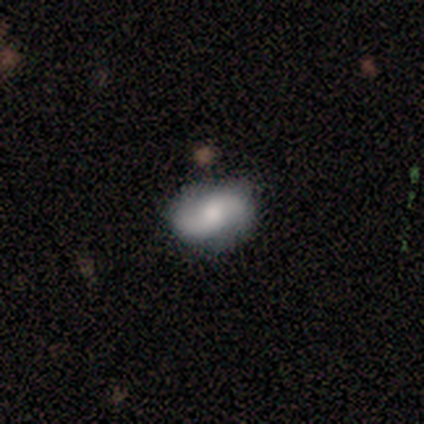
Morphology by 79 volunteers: smooth-or-featured: featured or disk: 70% | smooth: 25% | star or artifact: 5%
  disk-edge-on: no: 100% | yes: 0%
    bar: no: 67% | weak: 31% | strong: 2%
    has-spiral-arms: yes: 84% | no: 16%
      spiral-winding: loose: 48% | medium: 30% | tight: 22%
      spiral-arm-count: 2: 98% | 1: 2% | 3: 0% | 4: 0% | more than 4: 0% | can't tell: 0%
    bulge-size: moderate: 44% | small: 27% | large: 15% | dominant: 9% | none: 5%
  merging: none: 81% | minor disturbance: 13% | major disturbance: 4% | merger: 1%